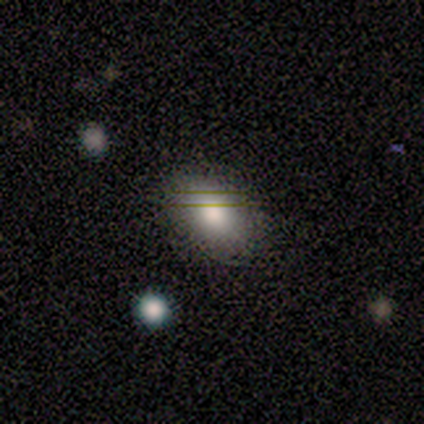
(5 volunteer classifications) A smooth galaxy with no disk features (100%) that is in between round and cigar-shaped (80%).

Vote fractions:
- Smooth or featured? smooth: 100% / featured or disk: 0% / star or artifact: 0%
- How rounded? in between: 80% / round: 20% / cigar-shaped: 0%
- Merging? none: 80% / minor disturbance: 20% / major disturbance: 0% / merger: 0%